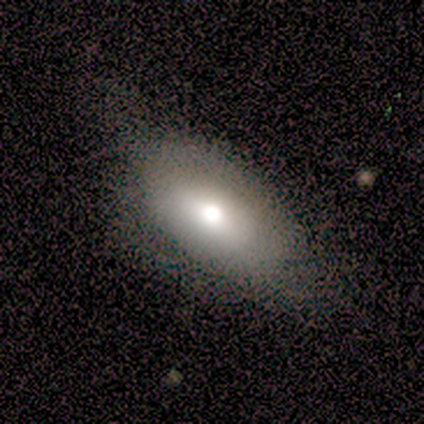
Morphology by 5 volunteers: type=smooth (60%); roundness=in between (100%); merging=none (75%).